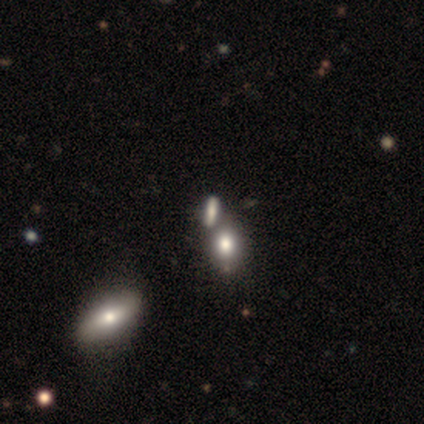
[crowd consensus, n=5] Smooth or featured? smooth (40%, tied with featured or disk)
How rounded? in between (50%, tied with cigar-shaped)
Merging? none (75%)